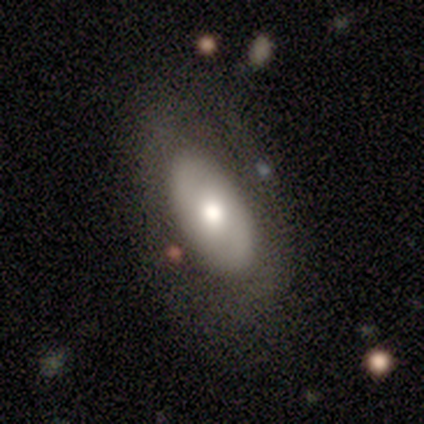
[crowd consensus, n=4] smooth_or_featured: smooth (p=0.75) [alt: featured or disk p=0.25]
how_rounded: in between (p=0.67) [alt: round p=0.33]
merging: none (p=0.75) [alt: major disturbance p=0.25]